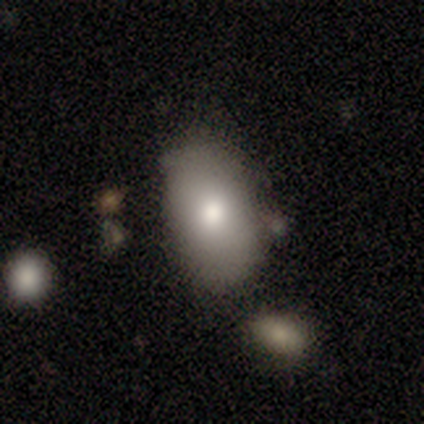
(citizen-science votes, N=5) Smooth or featured: smooth — 100%
How rounded: in between — 80% (round — 20%)
Merging: minor disturbance — 60% (none — 40%)